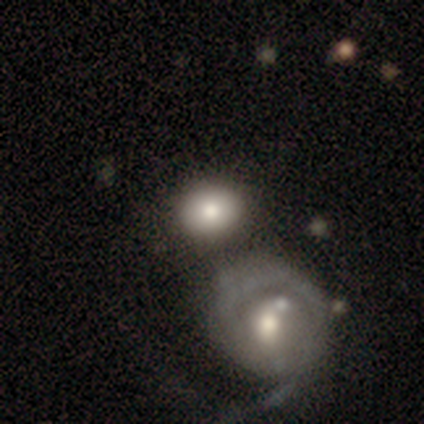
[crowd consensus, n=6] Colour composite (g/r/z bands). It shows a smooth galaxy with no disk features (67%) that is in between round and cigar-shaped (75%). Merging: merger (50%).